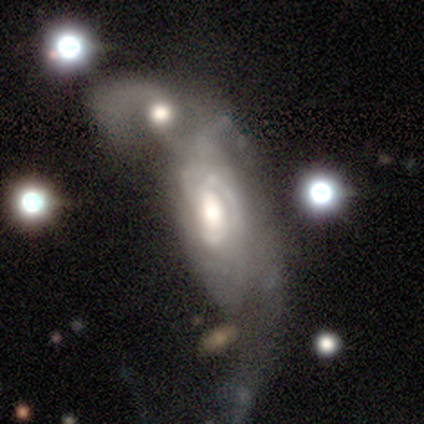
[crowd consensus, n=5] Smooth or featured?
  - featured or disk: 60% *
  - smooth: 40%
  - star or artifact: 0%
Edge-on disk?
  - no: 100% *
  - yes: 0%
Bar?
  - no: 100% *
  - strong: 0%
  - weak: 0%
Spiral arms?
  - no: 67% *
  - yes: 33%
Bulge size?
  - dominant: 67% *
  - large: 33%
  - moderate: 0%
  - small: 0%
  - none: 0%
Merging?
  - merger: 80% *
  - minor disturbance: 20%
  - none: 0%
  - major disturbance: 0%